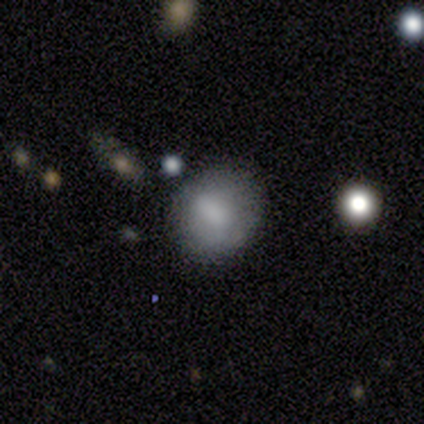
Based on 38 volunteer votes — Volunteers were most divided on "how rounded": round: 61%, in between: 39%, cigar-shaped: 0%. More confident: smooth or featured — smooth (87%); merging — none (81%).